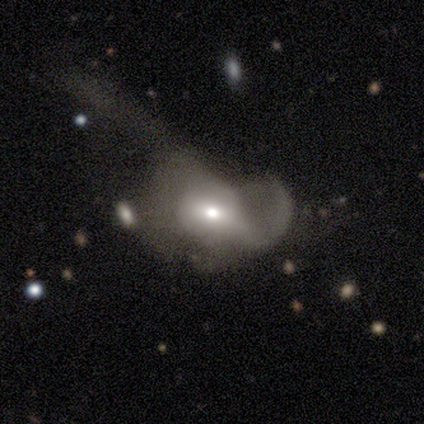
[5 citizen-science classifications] featured or disk 60%, smooth 40%, star or artifact 0%. Down the decision tree: edge-on disk — no (100%); bar — weak (67%); spiral arms — yes (67%); spiral arm count — 2 (100%); spiral winding — tight (50%, tied with loose); bulge size — moderate (100%); merging — major disturbance (100%).